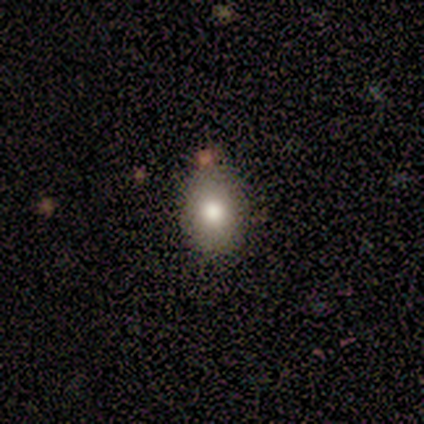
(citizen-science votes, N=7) Smooth or featured?
  - smooth: 57% *
  - star or artifact: 43%
  - featured or disk: 0%
How rounded?
  - round: 50% * (tied)
  - in between: 50% * (tied)
  - cigar-shaped: 0%
Merging?
  - none: 75% *
  - minor disturbance: 25%
  - major disturbance: 0%
  - merger: 0%